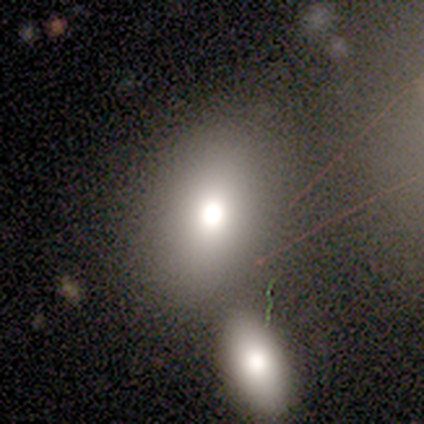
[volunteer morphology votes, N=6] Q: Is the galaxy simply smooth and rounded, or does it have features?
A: smooth — 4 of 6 (67%).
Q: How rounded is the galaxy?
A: round — 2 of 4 (50%, tied with in between).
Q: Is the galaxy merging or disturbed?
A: none — 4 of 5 (80%).